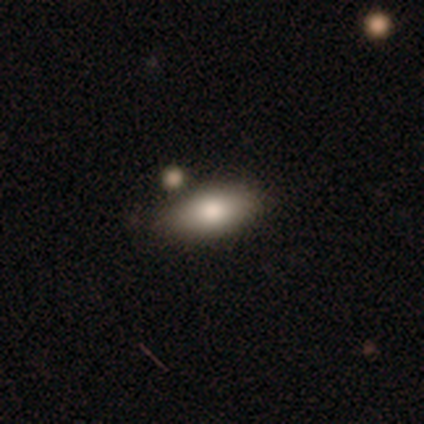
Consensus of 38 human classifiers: This is likely a smooth galaxy (74%). How rounded: clearly in between (93%). Merging: clearly none (88%).